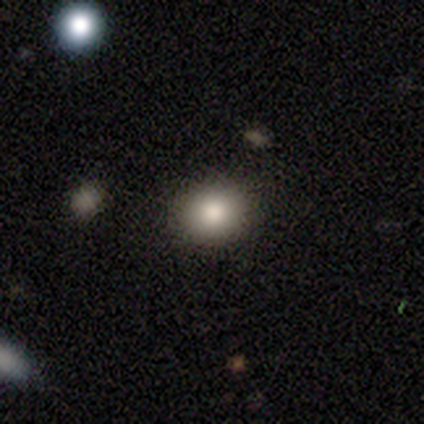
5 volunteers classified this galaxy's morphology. smooth-or-featured: smooth: 60% | featured or disk: 20% | star or artifact: 20%
  how-rounded: in between: 67% | round: 33% | cigar-shaped: 0%
  merging: none: 100% | minor disturbance: 0% | major disturbance: 0% | merger: 0%